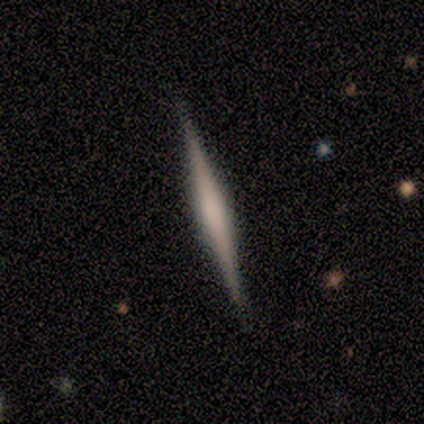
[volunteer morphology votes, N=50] type=featured or disk (74%); edge-on=yes (100%); edge-on bulge=rounded (49%); merging=none (96%).